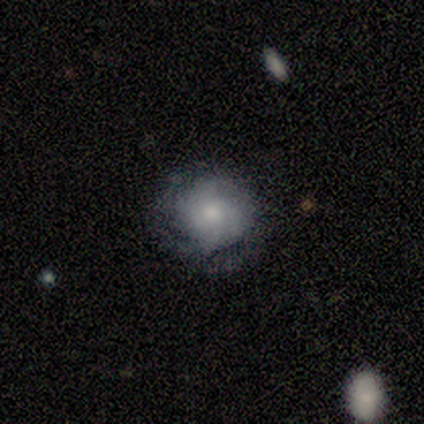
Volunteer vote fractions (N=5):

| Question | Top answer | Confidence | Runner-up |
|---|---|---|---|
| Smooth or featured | smooth | 80% | featured or disk (20%) |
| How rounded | round | 100% | — |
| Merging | minor disturbance | 60% | none (40%) |